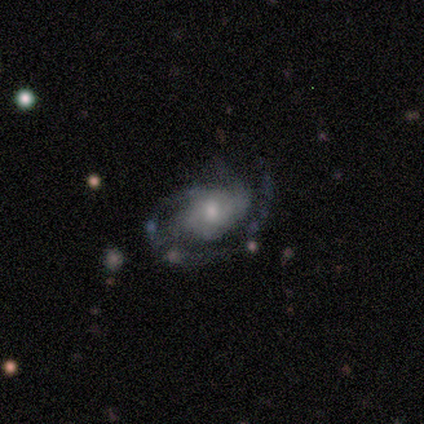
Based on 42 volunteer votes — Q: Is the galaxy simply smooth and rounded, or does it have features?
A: featured or disk — 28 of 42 (67%).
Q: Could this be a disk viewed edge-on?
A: no — 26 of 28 (93%).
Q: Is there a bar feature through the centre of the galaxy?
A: no — 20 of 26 (77%).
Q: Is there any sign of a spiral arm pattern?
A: yes — 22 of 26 (85%).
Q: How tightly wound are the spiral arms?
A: medium — 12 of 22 (55%).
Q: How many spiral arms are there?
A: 1 — 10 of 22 (45%).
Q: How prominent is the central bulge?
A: moderate — 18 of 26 (69%).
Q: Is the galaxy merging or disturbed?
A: major disturbance — 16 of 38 (42%).